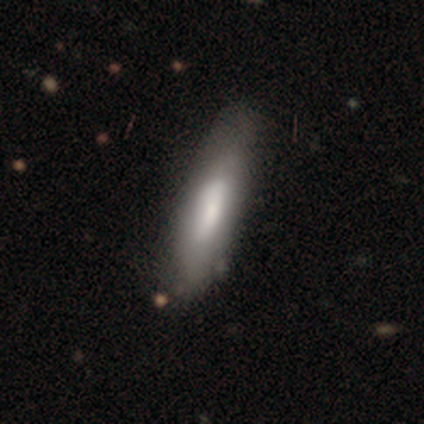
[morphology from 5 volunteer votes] Smooth or featured? smooth (80%)
How rounded? cigar-shaped (75%)
Merging? none (80%)